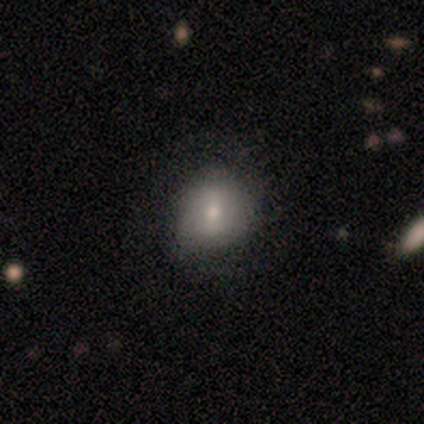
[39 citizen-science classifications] Volunteers were most divided on "smooth or featured": smooth: 72%, featured or disk: 18%, star or artifact: 10%. More confident: how rounded — round (89%); merging — none (74%).